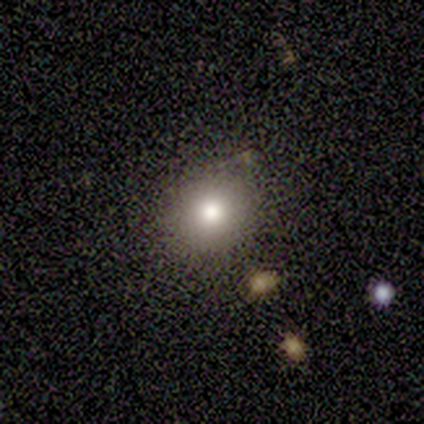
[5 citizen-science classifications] Overall: smooth (100%). How rounded: round (100%). Merging: none (60%; major disturbance 20%).